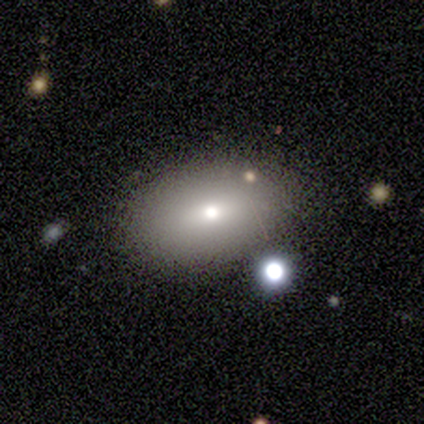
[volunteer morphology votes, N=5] type=smooth (60%); roundness=in between (67%); merging=none (80%).